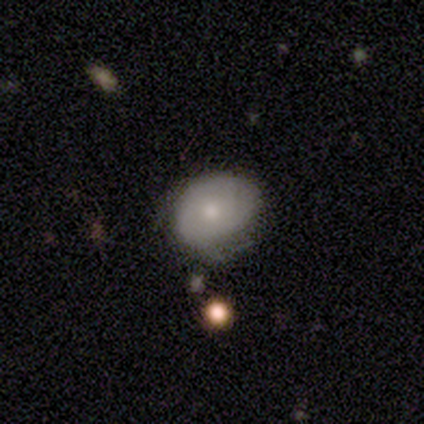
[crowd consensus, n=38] Smooth or featured?
  - smooth: 61% *
  - featured or disk: 32%
  - star or artifact: 8%
How rounded?
  - round: 61% *
  - in between: 39%
  - cigar-shaped: 0%
Merging?
  - none: 51% *
  - minor disturbance: 37%
  - major disturbance: 9%
  - merger: 3%